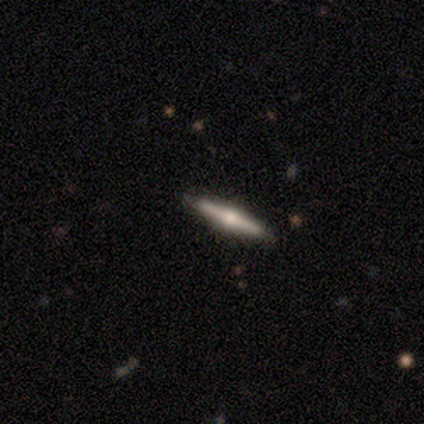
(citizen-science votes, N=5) Overall: smooth (60%; featured or disk 40%). How rounded: cigar-shaped (100%). Merging: none (80%).